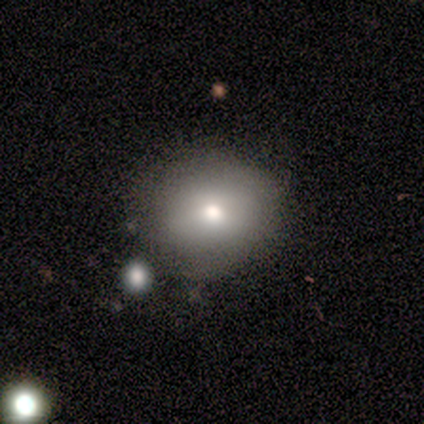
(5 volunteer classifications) Smooth or featured: smooth — 60% (star or artifact — 40%)
How rounded: round — 67% (in between — 33%)
Merging: none — 33% (tied with minor disturbance — 33%; major disturbance — 33%)